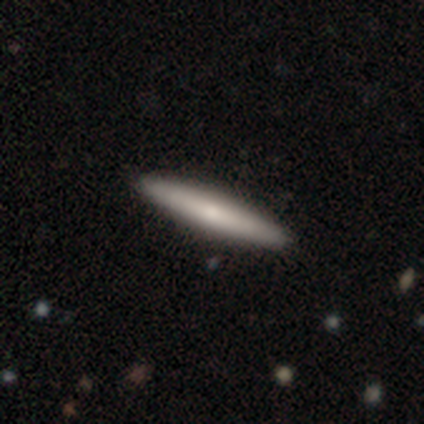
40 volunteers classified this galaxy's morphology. Smooth or featured: smooth — 62% (featured or disk — 38%)
How rounded: cigar-shaped — 92% (round — 4%)
Merging: none — 90% (minor disturbance — 8%)